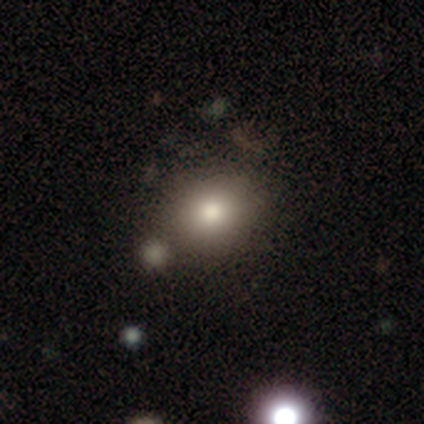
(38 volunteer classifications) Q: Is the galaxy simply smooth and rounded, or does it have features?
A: smooth — 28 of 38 (74%).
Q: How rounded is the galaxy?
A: round — 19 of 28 (68%).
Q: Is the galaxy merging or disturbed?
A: none — 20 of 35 (57%).